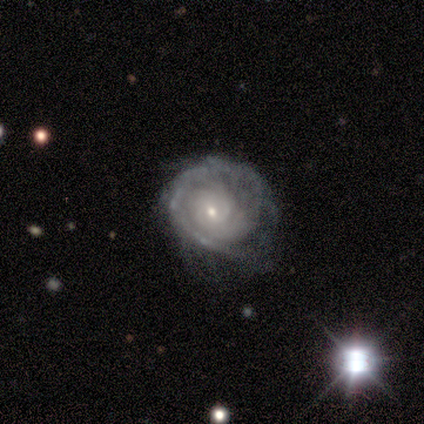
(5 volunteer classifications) A featured or disk galaxy (80%) with no bar (100%), 2 (67%) tight (100%) spiral arms (75%) and a small central bulge (75%). Merging: minor disturbance (40%, tied with major disturbance).